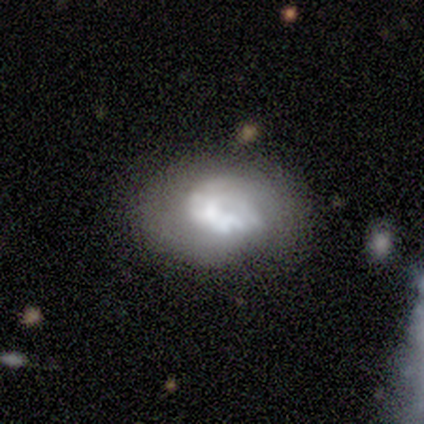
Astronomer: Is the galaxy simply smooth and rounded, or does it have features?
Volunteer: featured or disk — 66%.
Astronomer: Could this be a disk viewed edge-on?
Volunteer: no — 92%.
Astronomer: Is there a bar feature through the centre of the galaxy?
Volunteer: no — 87%.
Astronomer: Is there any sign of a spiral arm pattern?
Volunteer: no — 74%.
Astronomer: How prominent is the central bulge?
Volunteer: none — 39% (runner-up: large, 35%).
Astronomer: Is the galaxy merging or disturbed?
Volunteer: none — 61%.